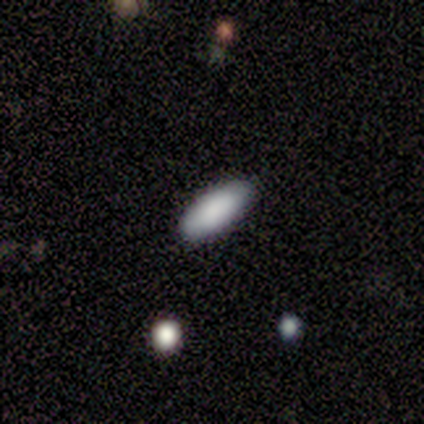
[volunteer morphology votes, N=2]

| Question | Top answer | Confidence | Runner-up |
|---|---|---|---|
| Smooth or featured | smooth | 100% | — |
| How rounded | in between | 100% | — |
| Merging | none | 50% | tied: minor disturbance (50%) |